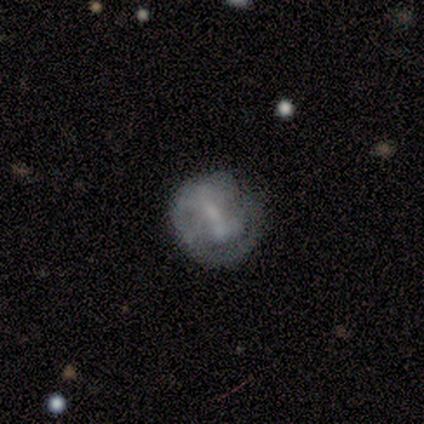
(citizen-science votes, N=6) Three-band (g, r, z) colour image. It shows a featured or disk galaxy (83%) with a weak bar (80%), 2 (60%) tight (60%) spiral arms (100%) and a small central bulge (40%, tied with none). Merging: none (50%).